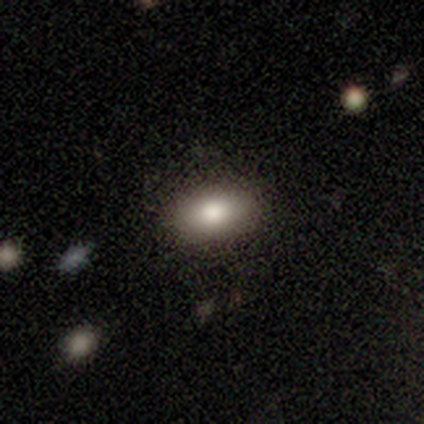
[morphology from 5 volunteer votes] A smooth galaxy with no disk features (80%) that is in between round and cigar-shaped (75%). Merging: none (80%).